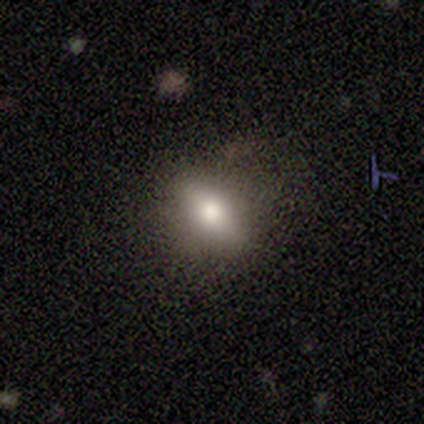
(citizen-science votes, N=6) Overall: smooth (83%). How rounded: in between (100%). Merging: none (50%; minor disturbance 33%).